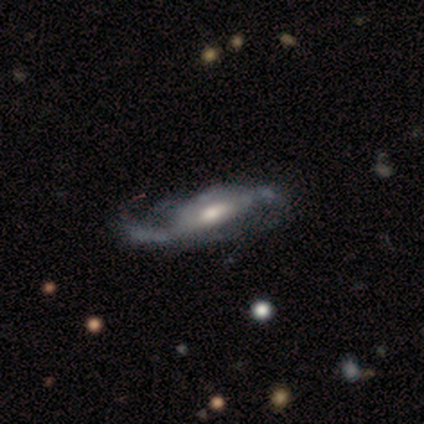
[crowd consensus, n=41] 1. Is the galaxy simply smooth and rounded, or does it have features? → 88% featured or disk, 12% smooth, 0% star or artifact.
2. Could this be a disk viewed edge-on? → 86% no, 14% yes.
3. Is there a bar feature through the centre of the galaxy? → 42% no, 32% weak, 26% strong.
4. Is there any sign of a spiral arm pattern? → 74% yes, 26% no.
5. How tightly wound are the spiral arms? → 70% loose, 17% medium, 13% tight.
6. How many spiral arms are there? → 70% 2, 17% can't tell, 9% 1, 4% 3, 0% 4, 0% more than 4.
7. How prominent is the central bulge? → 71% moderate, 19% large, 10% small, 0% dominant, 0% none.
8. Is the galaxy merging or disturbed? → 34% none, 32% major disturbance, 29% minor disturbance, 5% merger.